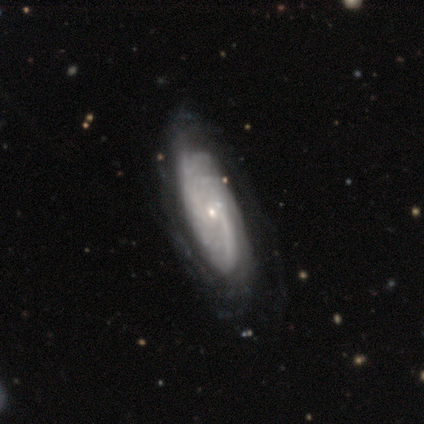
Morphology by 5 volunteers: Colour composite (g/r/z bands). It shows a featured or disk galaxy (60%) with no bar (100%), 1 (33%, tied with 3 and can't tell) tight (67%) spiral arms (100%) and a small central bulge (100%). Merging: none (75%).